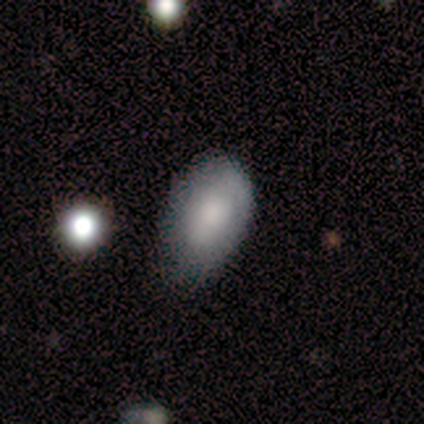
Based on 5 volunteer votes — Smooth or featured: smooth — 100%
How rounded: in between — 100%
Merging: minor disturbance — 80% (none — 20%)